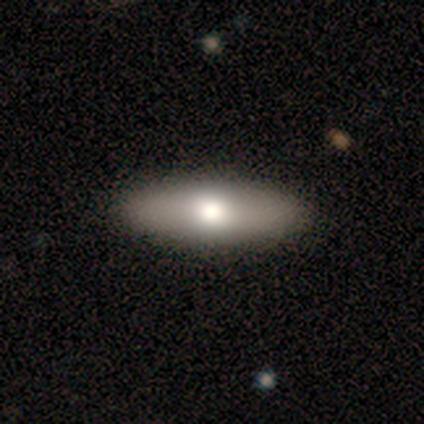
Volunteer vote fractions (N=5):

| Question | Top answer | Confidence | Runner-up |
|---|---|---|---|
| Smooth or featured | smooth | 100% | — |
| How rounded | in between | 80% | cigar-shaped (20%) |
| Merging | none | 60% | minor disturbance (40%) |